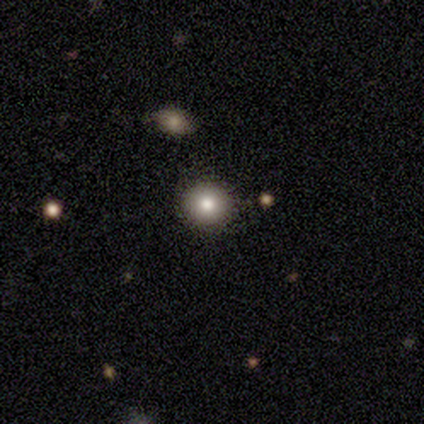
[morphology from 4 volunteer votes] type=star or artifact (50%).